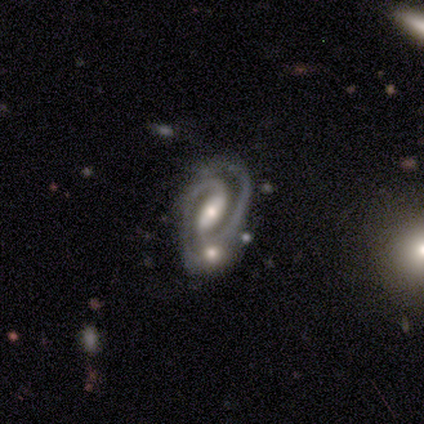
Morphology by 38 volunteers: Smooth or featured? 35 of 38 (92%) said featured or disk. Edge-on disk? 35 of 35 (100%) said no. Bar? 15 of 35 (43%, tied with weak) said strong. Spiral arms? 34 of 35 (97%) said yes. Spiral winding? 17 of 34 (50%) said medium. Spiral arm count? 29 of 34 (85%) said 2. Bulge size? 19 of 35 (54%) said moderate. Merging? 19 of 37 (51%) said none.